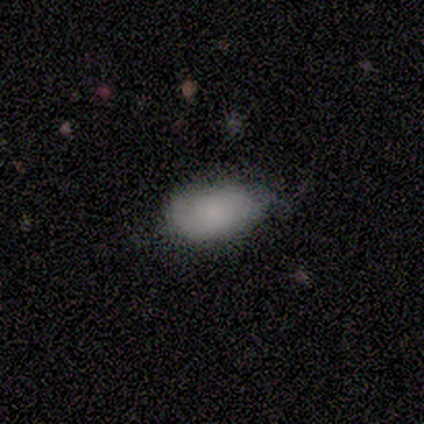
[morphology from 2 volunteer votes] Smooth or featured? smooth (100%)
How rounded? in between (100%)
Merging? none (50%, tied with minor disturbance)